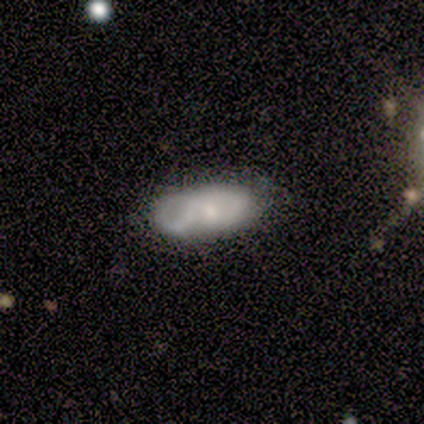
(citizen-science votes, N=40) Smooth or featured: smooth — 52% (featured or disk — 45%)
How rounded: in between — 81% (cigar-shaped — 14%)
Merging: none — 56% (minor disturbance — 28%)